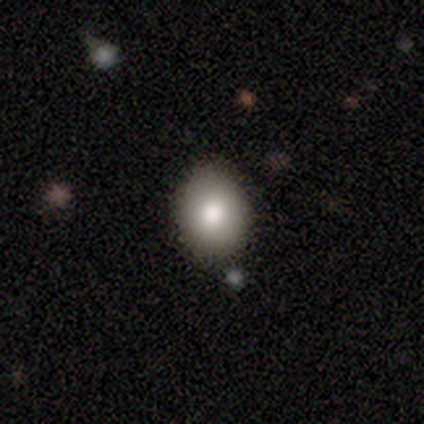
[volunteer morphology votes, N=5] type=smooth (100%); roundness=round (60%); merging=minor disturbance (60%).